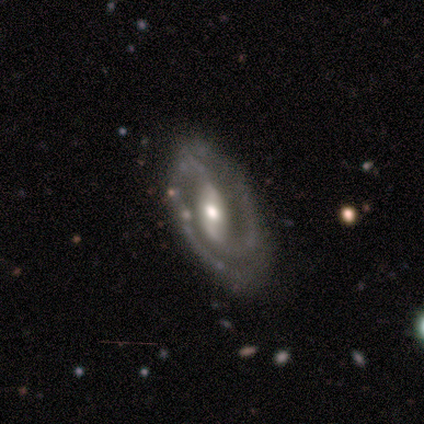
Smooth or featured?
  - featured or disk: 100% *
  - smooth: 0%
  - star or artifact: 0%
Edge-on disk?
  - no: 100% *
  - yes: 0%
Bar?
  - strong: 40% * (tied)
  - no: 40% * (tied)
  - weak: 20%
Spiral arms?
  - yes: 100% *
  - no: 0%
Spiral winding?
  - medium: 60% *
  - tight: 40%
  - loose: 0%
Spiral arm count?
  - 2: 100% *
  - 1: 0%
  - 3: 0%
  - 4: 0%
  - more than 4: 0%
  - can't tell: 0%
Bulge size?
  - moderate: 60% *
  - large: 20%
  - small: 20%
  - dominant: 0%
  - none: 0%
Merging?
  - none: 100% *
  - minor disturbance: 0%
  - major disturbance: 0%
  - merger: 0%